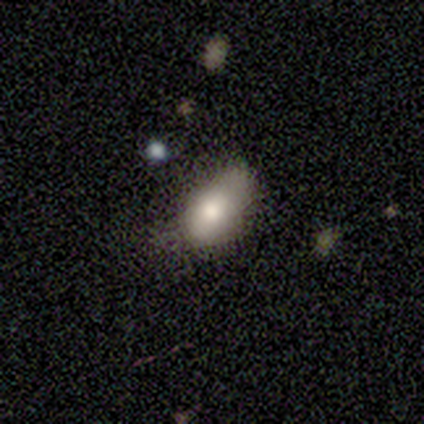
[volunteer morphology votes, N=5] Overall: smooth (100%). How rounded: in between (100%). Merging: none (40%, tied with major disturbance).